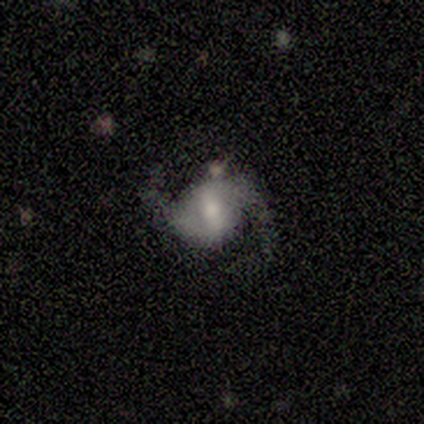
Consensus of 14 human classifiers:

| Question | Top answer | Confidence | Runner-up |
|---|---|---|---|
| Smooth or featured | featured or disk | 86% | smooth (7%) |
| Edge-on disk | no | 92% | yes (8%) |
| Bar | weak | 55% | strong (36%) |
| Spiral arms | yes | 91% | no (9%) |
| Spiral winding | medium | 50% | tied: loose (50%) |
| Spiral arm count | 2 | 100% | — |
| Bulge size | moderate | 64% | small (27%) |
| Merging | none | 77% | minor disturbance (15%) |